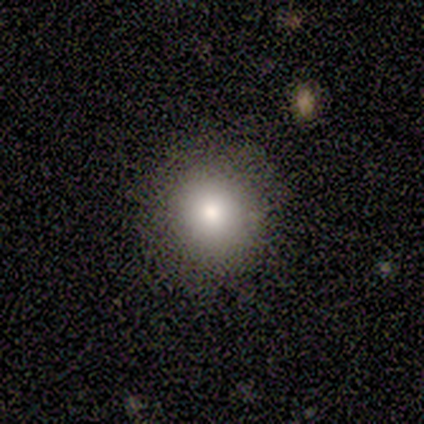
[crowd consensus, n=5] Q: Smooth or featured?
A: smooth (100%)
Q: How rounded?
A: round (80%); runner-up: in between (20%)
Q: Merging?
A: none (100%)